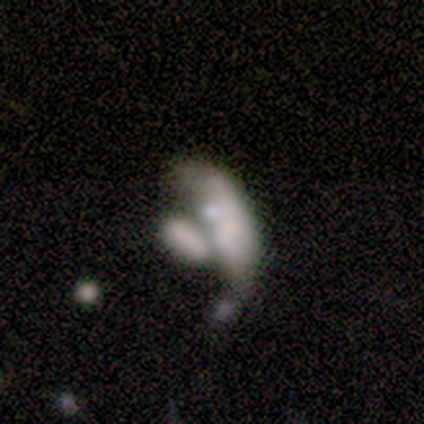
Morphology: type=featured or disk (80%); edge-on=yes (50%, tied with no); edge-on bulge=boxy (50%, tied with rounded); merging=none (40%, tied with merger).